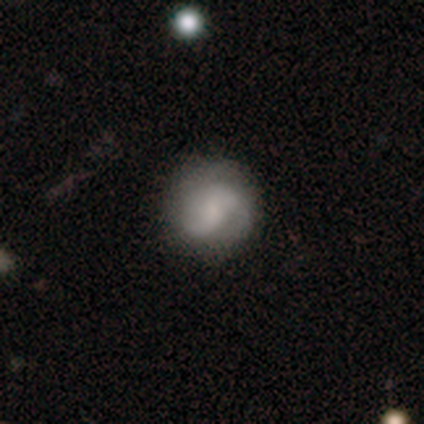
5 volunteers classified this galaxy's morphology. A featured or disk galaxy (80%) with a weak bar (50%, tied with no), 2 (75%) tight (50%, tied with loose) spiral arms (100%) and a moderate central bulge (75%). Merging: none (100%).